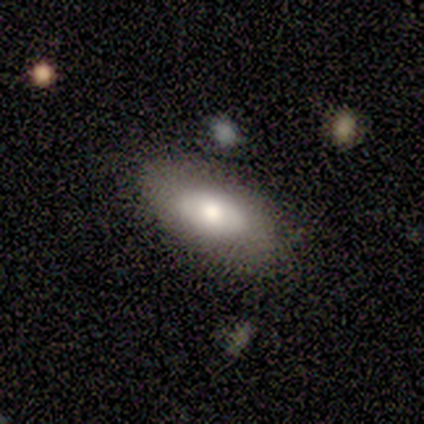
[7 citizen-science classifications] smooth-or-featured: smooth: 71% | featured or disk: 14% | star or artifact: 14%
  how-rounded: in between: 100% | round: 0% | cigar-shaped: 0%
  merging: none: 83% | merger: 17% | minor disturbance: 0% | major disturbance: 0%